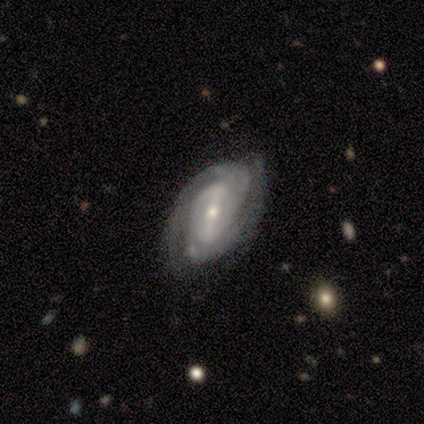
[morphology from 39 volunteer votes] This is clearly a featured or disk galaxy (95%). It is clearly not viewed edge-on (100%). Bar: possibly strong (51%). Spiral arm pattern: clearly yes (95%). Spiral arm count: likely 2 (71%). Spiral winding: likely tight (66%). Central bulge: likely small (62%). Merging: likely none (61%).